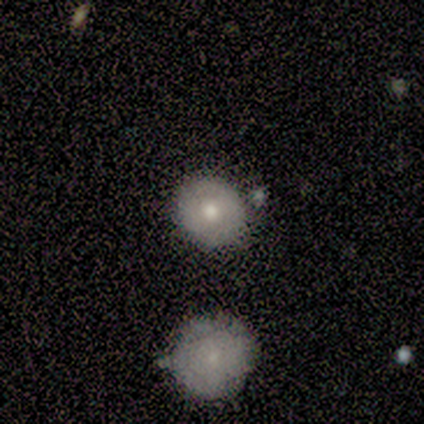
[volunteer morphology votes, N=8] smooth_or_featured: smooth (p=0.88) [alt: featured or disk p=0.12]
how_rounded: round (p=0.86) [alt: in between p=0.14]
merging: none (p=0.75) [alt: minor disturbance p=0.12]